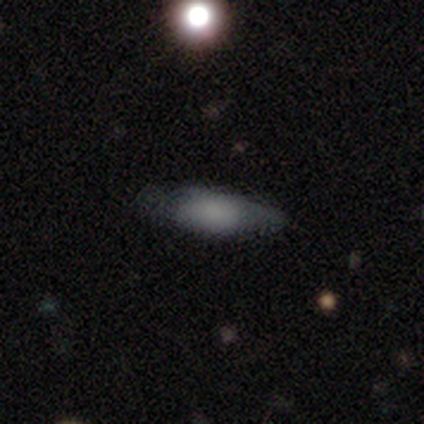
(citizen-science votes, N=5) This appears to be a smooth galaxy with no disk features (100%) that is in between round and cigar-shaped (80%). Merging: none (40%, tied with minor disturbance).